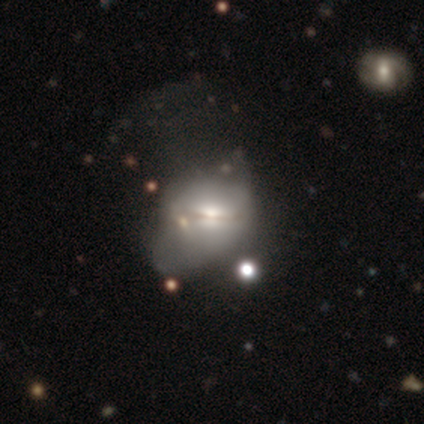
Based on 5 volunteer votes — Overall: featured or disk (60%; smooth 40%). Edge-on disk: no (67%; yes 33%). Bar: no (100%). Spiral arms: no (100%). Bulge size: large (50%, tied with moderate). Merging: minor disturbance (100%).